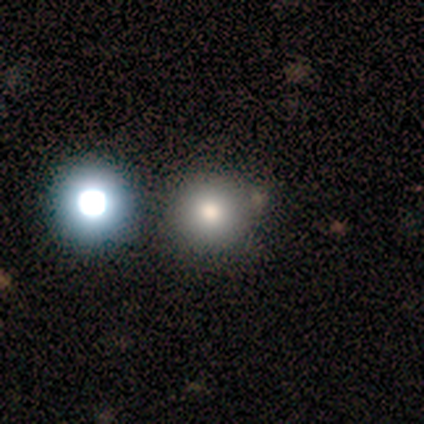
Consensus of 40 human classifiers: Smooth or featured?
  - smooth: 80% *
  - star or artifact: 18%
  - featured or disk: 2%
How rounded?
  - round: 100% *
  - in between: 0%
  - cigar-shaped: 0%
Merging?
  - none: 76% *
  - minor disturbance: 9%
  - merger: 9%
  - major disturbance: 6%